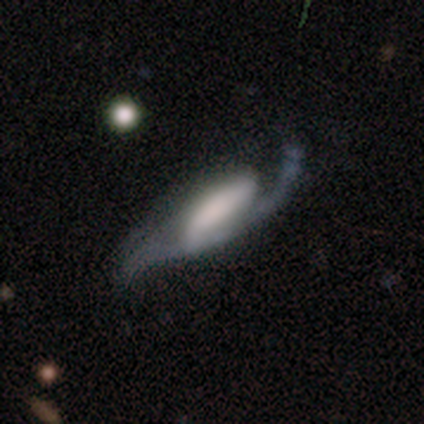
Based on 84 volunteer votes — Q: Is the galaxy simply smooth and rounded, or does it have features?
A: featured or disk — 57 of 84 (68%).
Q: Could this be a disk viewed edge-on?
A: no — 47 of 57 (82%).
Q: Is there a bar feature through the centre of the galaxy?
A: strong — 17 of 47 (36%).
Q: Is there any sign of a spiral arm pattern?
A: yes — 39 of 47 (83%).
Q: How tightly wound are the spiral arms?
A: loose — 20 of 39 (51%).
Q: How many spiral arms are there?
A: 2 — 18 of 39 (46%).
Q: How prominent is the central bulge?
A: none — 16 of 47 (34%).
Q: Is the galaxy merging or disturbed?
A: major disturbance — 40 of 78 (51%).